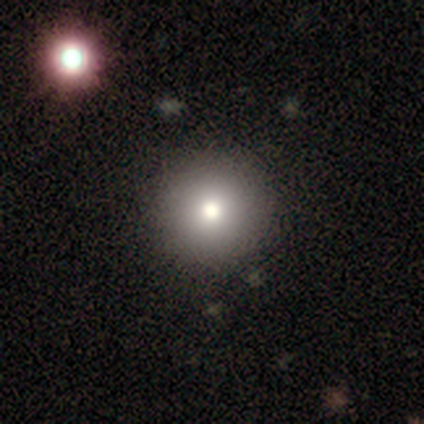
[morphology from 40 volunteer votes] This is likely a smooth galaxy (75%). How rounded: clearly round (100%). Merging: likely none (75%).